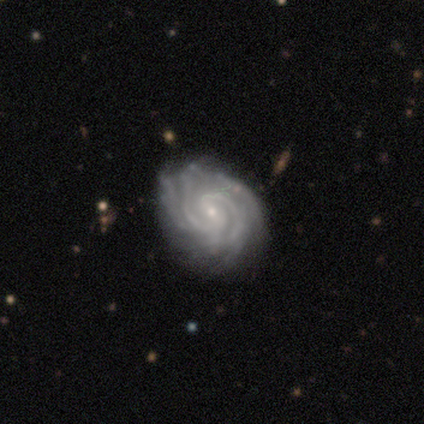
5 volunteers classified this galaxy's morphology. featured or disk 80%, star or artifact 20%, smooth 0%. Down the decision tree: edge-on disk — no (100%); bar — no (100%); spiral arms — yes (100%); spiral arm count — 2 (25%, tied with 3, 4 and can't tell); spiral winding — tight (75%); bulge size — small (100%); merging — none (50%, tied with minor disturbance).